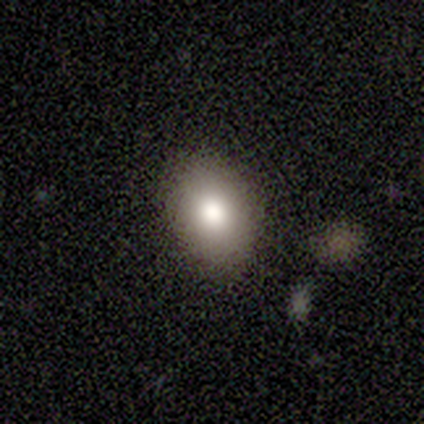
Smooth or featured? smooth (80%)
How rounded? round (50%, tied with in between)
Merging? none (50%, tied with minor disturbance)